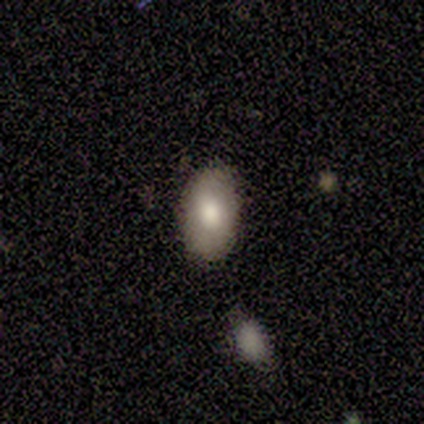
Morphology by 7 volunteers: smooth_or_featured: smooth (p=1.00)
how_rounded: in between (p=1.00)
merging: none (p=0.86) [alt: minor disturbance p=0.14]